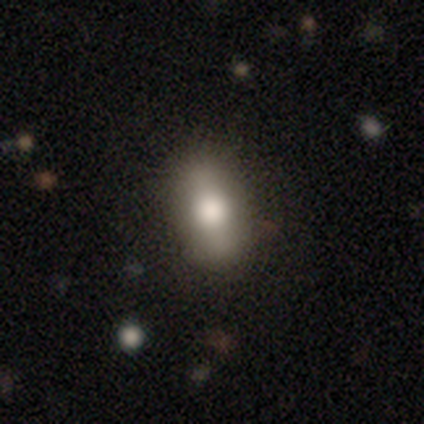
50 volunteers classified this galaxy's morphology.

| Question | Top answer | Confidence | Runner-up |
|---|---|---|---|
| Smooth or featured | smooth | 78% | featured or disk (14%) |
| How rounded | in between | 69% | cigar-shaped (18%) |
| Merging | none | 78% | minor disturbance (13%) |